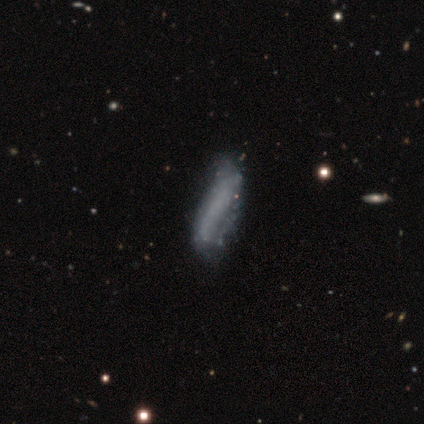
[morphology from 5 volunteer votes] A featured or disk galaxy (80%) with no bar (100%), 1 (50%, tied with 2) loose (100%) spiral arms (67%) and no central bulge (100%). Merging: minor disturbance (60%).